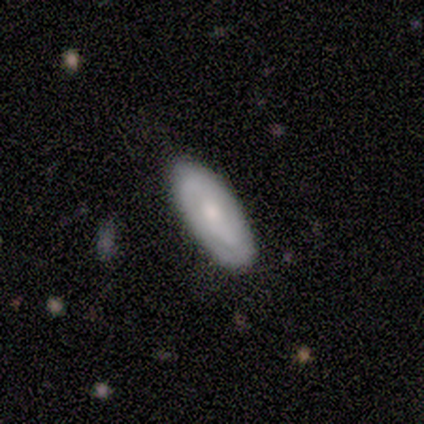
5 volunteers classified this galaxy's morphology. Q: Smooth or featured?
A: smooth (60%); runner-up: featured or disk (40%)
Q: How rounded?
A: in between (100%)
Q: Merging?
A: none (80%); runner-up: minor disturbance (20%)